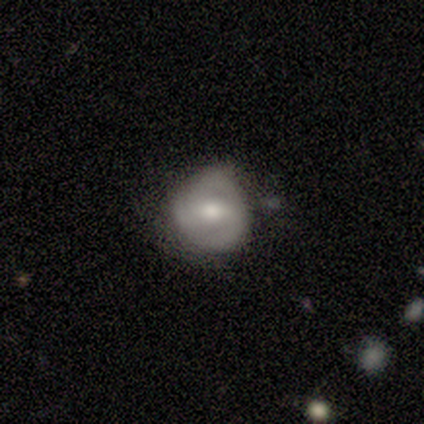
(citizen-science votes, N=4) A smooth galaxy with no disk features (50%, tied with featured or disk) that is round (50%, tied with in between). Merging: minor disturbance (75%).